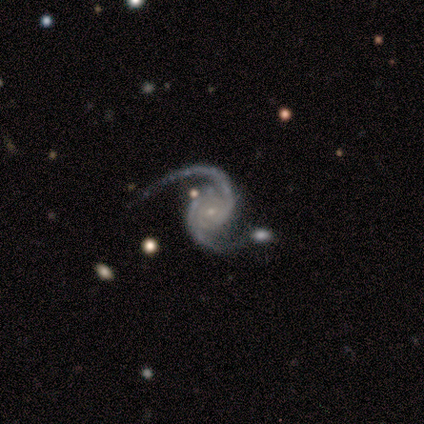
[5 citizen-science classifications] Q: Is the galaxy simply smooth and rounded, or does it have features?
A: featured or disk — 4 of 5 (80%).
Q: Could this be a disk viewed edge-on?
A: no — 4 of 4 (100%).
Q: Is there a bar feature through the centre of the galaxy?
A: weak — 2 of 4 (50%, tied with no).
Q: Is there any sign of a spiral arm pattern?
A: yes — 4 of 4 (100%).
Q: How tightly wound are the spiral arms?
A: tight — 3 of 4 (75%).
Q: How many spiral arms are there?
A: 2 — 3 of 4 (75%).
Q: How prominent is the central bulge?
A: small — 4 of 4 (100%).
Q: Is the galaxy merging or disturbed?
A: none — 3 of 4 (75%).